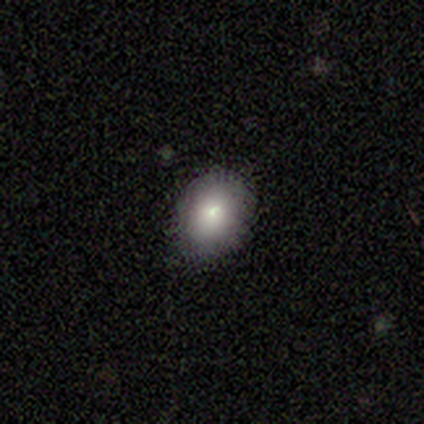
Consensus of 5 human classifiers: Smooth or featured?
  - smooth: 80% *
  - featured or disk: 20%
  - star or artifact: 0%
How rounded?
  - in between: 75% *
  - round: 25%
  - cigar-shaped: 0%
Merging?
  - none: 60% *
  - minor disturbance: 40%
  - major disturbance: 0%
  - merger: 0%